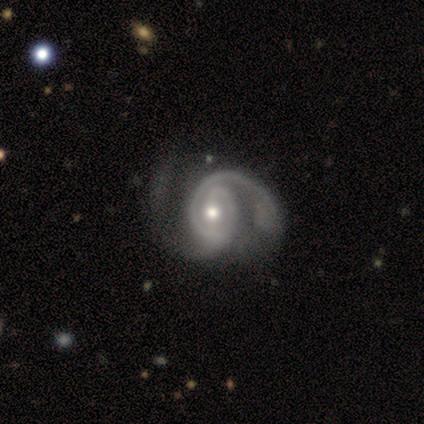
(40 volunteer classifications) Q: Smooth or featured?
A: featured or disk (95%); runner-up: smooth (2%)
Q: Edge-on disk?
A: no (97%); runner-up: yes (3%)
Q: Bar?
A: weak (49%); runner-up: no (30%)
Q: Spiral arms?
A: yes (100%)
Q: Spiral winding?
A: medium (68%); runner-up: tight (24%)
Q: Spiral arm count?
A: 2 (89%); runner-up: 1 (8%)
Q: Bulge size?
A: moderate (59%); runner-up: small (32%)
Q: Merging?
A: none (36%); runner-up: minor disturbance (21%)